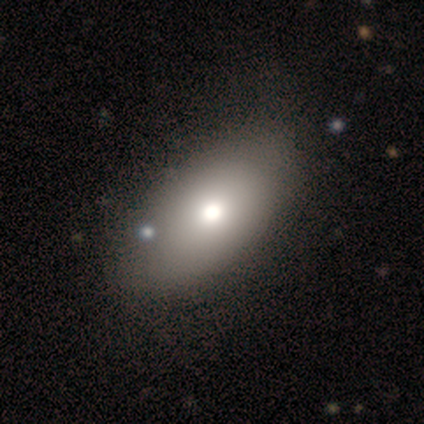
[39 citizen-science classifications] This is clearly a smooth galaxy (87%). How rounded: clearly in between (88%). Merging: marginally none (41%).